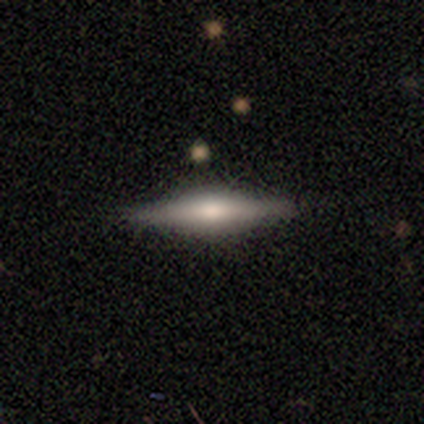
smooth-or-featured: featured or disk: 79% | smooth: 21% | star or artifact: 0%
  disk-edge-on: yes: 100% | no: 0%
    edge-on-bulge: rounded: 65% | boxy: 35% | none: 0%
  merging: none: 95% | minor disturbance: 3% | major disturbance: 3% | merger: 0%